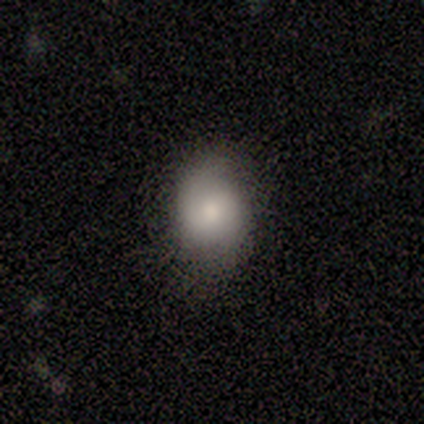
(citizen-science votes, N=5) Smooth or featured? smooth (60%)
How rounded? round (67%)
Merging? none (60%)